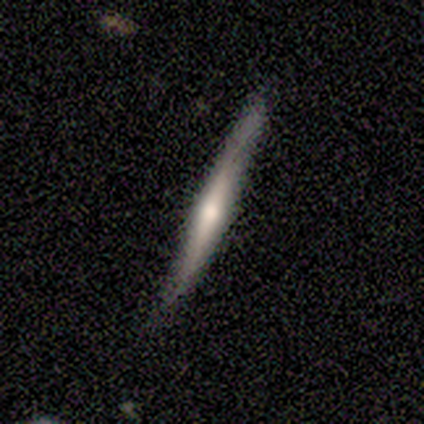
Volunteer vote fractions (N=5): This appears to be a featured or disk galaxy (60%) viewed edge-on (100%) with a rounded central bulge (100%). Merging: none (80%).